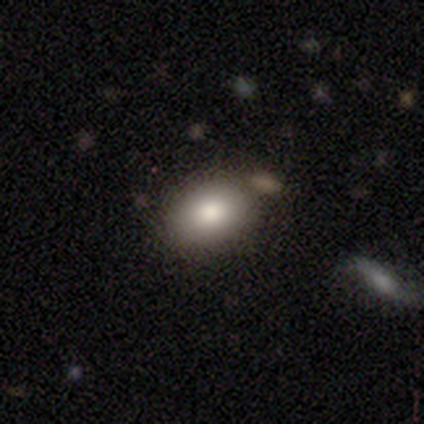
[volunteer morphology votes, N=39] smooth-or-featured: smooth: 77% | star or artifact: 15% | featured or disk: 8%
  how-rounded: in between: 77% | round: 23% | cigar-shaped: 0%
  merging: none: 94% | minor disturbance: 6% | major disturbance: 0% | merger: 0%